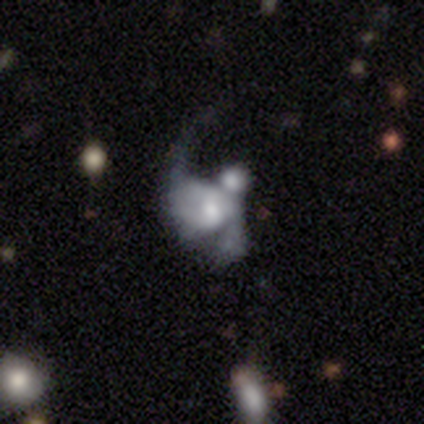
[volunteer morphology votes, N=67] featured or disk 69%, smooth 18%, star or artifact 13%. Down the decision tree: edge-on disk — no (100%); bar — no (61%); spiral arms — yes (63%); spiral arm count — 2 (69%); spiral winding — loose (69%); bulge size — moderate (52%); merging — major disturbance (45%).